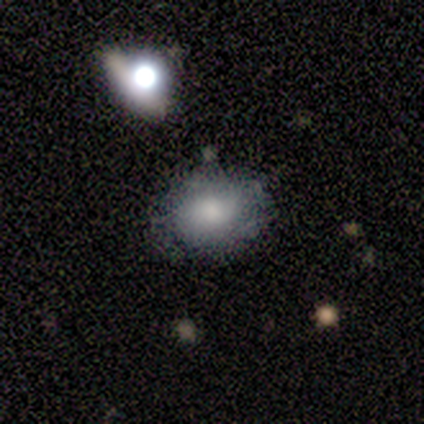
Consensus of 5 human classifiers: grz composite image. It shows a smooth galaxy with no disk features (80%) that is in between round and cigar-shaped (75%). Merging: minor disturbance (60%).